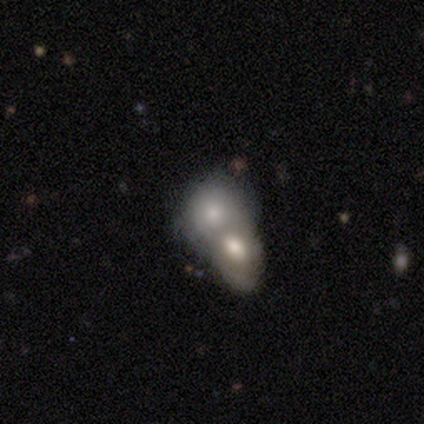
A smooth galaxy with no disk features (69%) that is round (50%).

Vote fractions:
- Smooth or featured? smooth: 69% / featured or disk: 26% / star or artifact: 6%
- How rounded? round: 50% / in between: 46% / cigar-shaped: 4%
- Merging? merger: 76% / none: 9% / major disturbance: 9% / minor disturbance: 6%